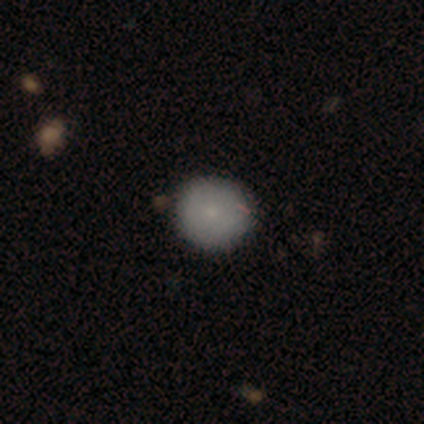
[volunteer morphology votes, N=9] A smooth galaxy with no disk features (89%) that is round (88%).

Vote fractions:
- Smooth or featured? smooth: 89% / featured or disk: 11% / star or artifact: 0%
- How rounded? round: 88% / in between: 12% / cigar-shaped: 0%
- Merging? none: 56% / minor disturbance: 44% / major disturbance: 0% / merger: 0%